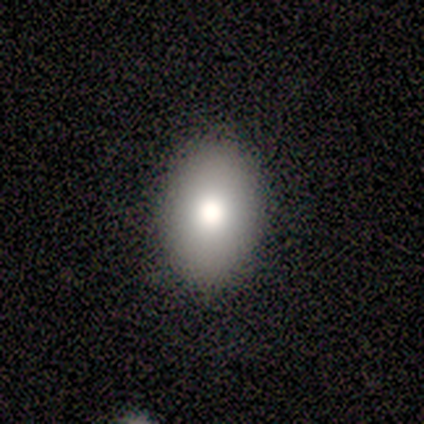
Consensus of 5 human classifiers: smooth-or-featured: smooth: 100% | featured or disk: 0% | star or artifact: 0%
  how-rounded: in between: 100% | round: 0% | cigar-shaped: 0%
  merging: none: 100% | minor disturbance: 0% | major disturbance: 0% | merger: 0%